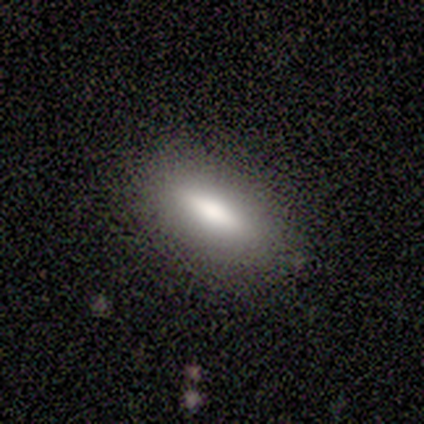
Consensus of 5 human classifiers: Overall: smooth (80%). How rounded: in between (50%, tied with cigar-shaped). Merging: none (80%).